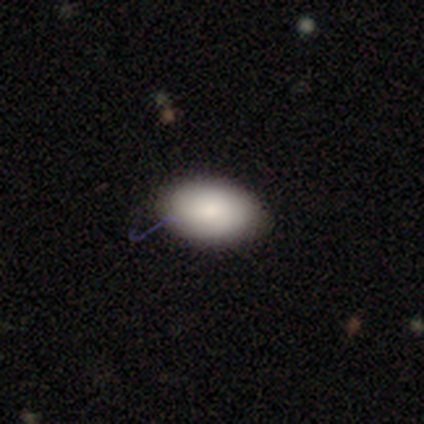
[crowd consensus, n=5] Q: Smooth or featured?
A: smooth (80%); runner-up: featured or disk (20%)
Q: How rounded?
A: in between (100%)
Q: Merging?
A: none (100%)